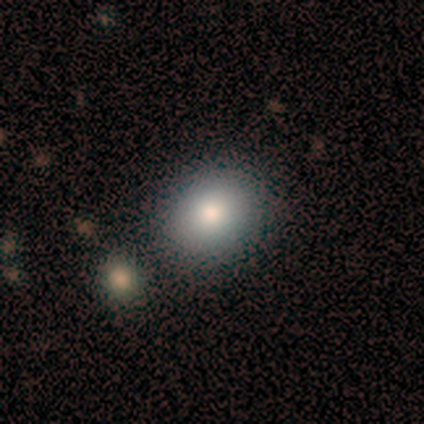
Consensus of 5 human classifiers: Volunteers were most divided on "how rounded": round: 60%, in between: 40%, cigar-shaped: 0%. More confident: smooth or featured — smooth (100%); merging — none (80%).